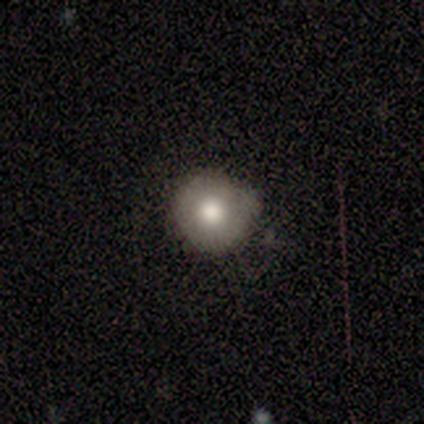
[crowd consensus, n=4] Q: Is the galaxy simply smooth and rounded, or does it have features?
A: smooth — 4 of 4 (100%).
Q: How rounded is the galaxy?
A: round — 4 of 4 (100%).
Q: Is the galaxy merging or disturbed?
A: none — 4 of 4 (100%).